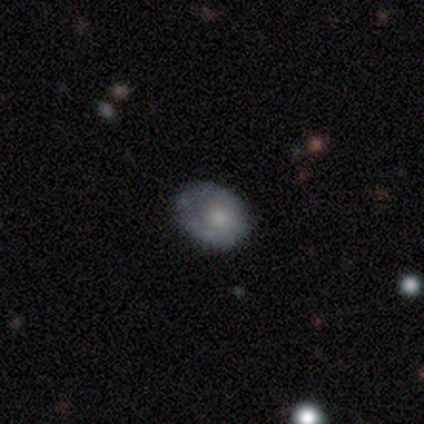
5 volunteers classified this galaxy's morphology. type=featured or disk (60%); edge-on=no (67%); bar=no (100%); spiral arms=no (100%); bulge=large (50%, tied with small); merging=minor disturbance (60%).